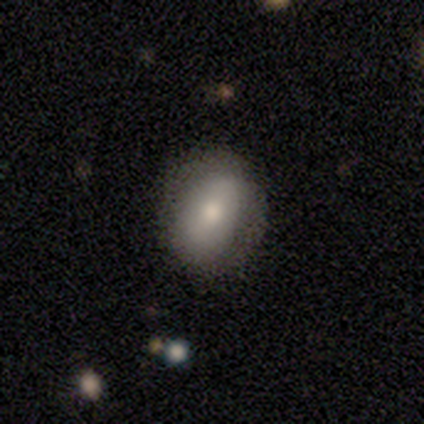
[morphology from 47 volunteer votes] Smooth or featured: smooth — 68% (featured or disk — 23%)
How rounded: in between — 75% (round — 25%)
Merging: none — 70% (minor disturbance — 23%)